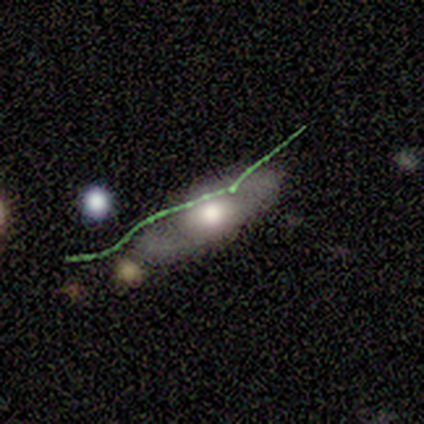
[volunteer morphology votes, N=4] Volunteers were most divided on "edge-on disk" (2-way tie): yes: 50%, no: 50%. More confident: edge-on bulge — rounded (100%); merging — minor disturbance (67%); smooth or featured — featured or disk (50%).